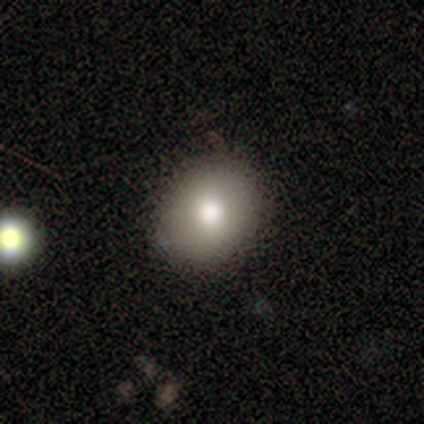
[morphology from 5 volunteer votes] Smooth or featured? smooth (80%)
How rounded? in between (75%)
Merging? none (100%)